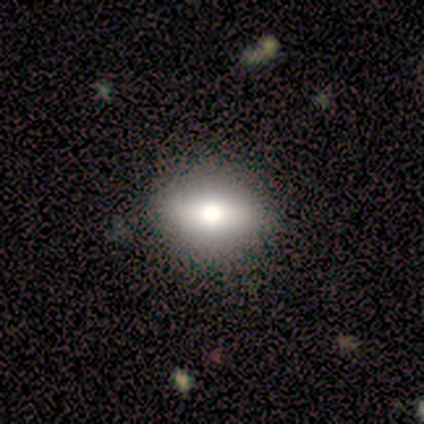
Morphology: type=smooth (75%); roundness=in between (100%); merging=none (100%).